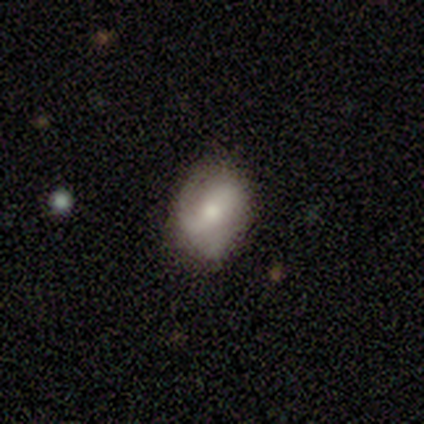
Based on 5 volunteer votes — Smooth or featured?
  - featured or disk: 60% *
  - smooth: 40%
  - star or artifact: 0%
Edge-on disk?
  - no: 100% *
  - yes: 0%
Bar?
  - no: 67% *
  - weak: 33%
  - strong: 0%
Spiral arms?
  - yes: 100% *
  - no: 0%
Spiral winding?
  - tight: 67% *
  - loose: 33%
  - medium: 0%
Spiral arm count?
  - 2: 67% *
  - can't tell: 33%
  - 1: 0%
  - 3: 0%
  - 4: 0%
  - more than 4: 0%
Bulge size?
  - moderate: 33% * (tied)
  - small: 33% * (tied)
  - none: 33% * (tied)
  - dominant: 0%
  - large: 0%
Merging?
  - none: 80% *
  - minor disturbance: 20%
  - major disturbance: 0%
  - merger: 0%